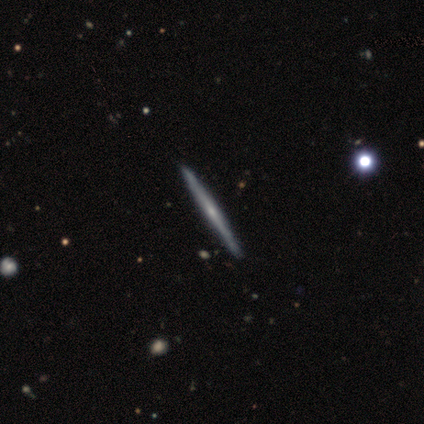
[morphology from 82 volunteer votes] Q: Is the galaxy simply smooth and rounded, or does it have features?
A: featured or disk — 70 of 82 (85%).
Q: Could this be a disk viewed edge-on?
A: yes — 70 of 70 (100%).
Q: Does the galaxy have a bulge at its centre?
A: none — 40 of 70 (57%).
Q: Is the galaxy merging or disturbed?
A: none — 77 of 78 (99%).